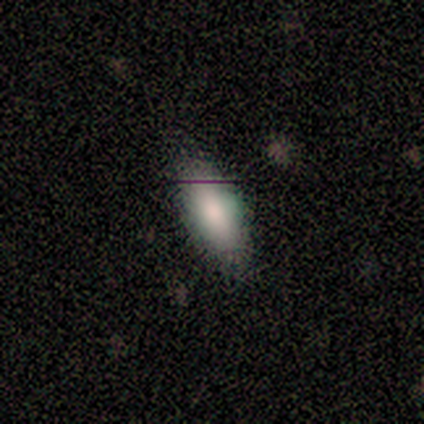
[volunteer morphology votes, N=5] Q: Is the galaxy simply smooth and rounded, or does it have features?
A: smooth — 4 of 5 (80%).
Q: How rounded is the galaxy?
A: in between — 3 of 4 (75%).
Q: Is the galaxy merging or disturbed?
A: none — 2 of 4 (50%, tied with minor disturbance).